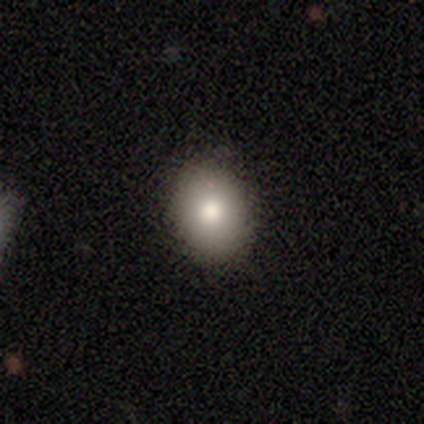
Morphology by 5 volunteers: This appears to be a smooth galaxy with no disk features (80%) that is round (75%). Merging: none (100%).